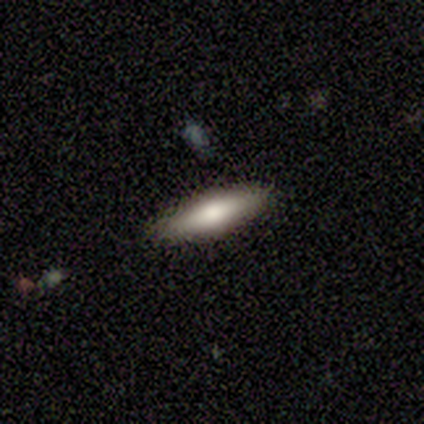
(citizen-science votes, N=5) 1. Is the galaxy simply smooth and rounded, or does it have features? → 60% smooth, 40% featured or disk, 0% star or artifact.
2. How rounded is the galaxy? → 100% cigar-shaped, 0% round, 0% in between.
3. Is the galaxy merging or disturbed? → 80% none, 20% major disturbance, 0% minor disturbance, 0% merger.